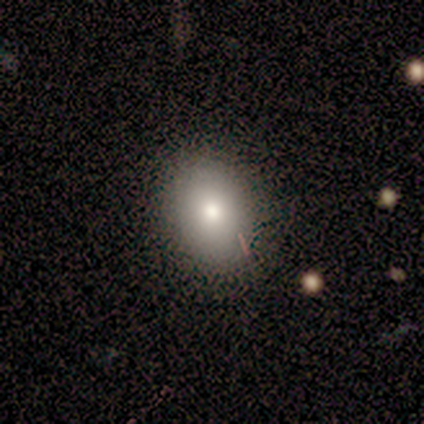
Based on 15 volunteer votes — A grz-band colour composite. It shows a smooth galaxy with no disk features (87%) that is in between round and cigar-shaped (54%). Merging: none (80%).